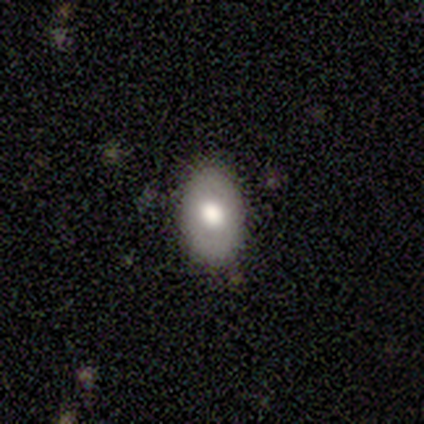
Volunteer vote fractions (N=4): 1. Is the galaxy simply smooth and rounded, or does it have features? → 75% featured or disk, 25% smooth, 0% star or artifact.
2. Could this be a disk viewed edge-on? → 100% no, 0% yes.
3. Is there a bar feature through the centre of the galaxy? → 67% no, 33% weak, 0% strong.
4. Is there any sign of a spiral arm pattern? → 67% yes, 33% no.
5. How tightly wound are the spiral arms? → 100% tight, 0% medium, 0% loose.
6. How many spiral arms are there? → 100% 2, 0% 1, 0% 3, 0% 4, 0% more than 4, 0% can't tell.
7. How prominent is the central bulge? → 67% large, 33% moderate, 0% dominant, 0% small, 0% none.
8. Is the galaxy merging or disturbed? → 50% none (tied), 50% minor disturbance (tied), 0% major disturbance, 0% merger.